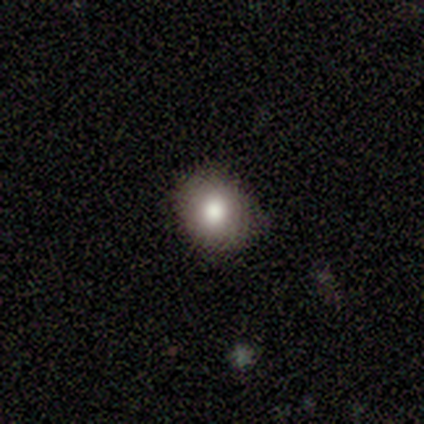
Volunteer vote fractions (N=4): smooth 75%, star or artifact 25%, featured or disk 0%. Down the decision tree: how rounded — round (67%); merging — none (67%).